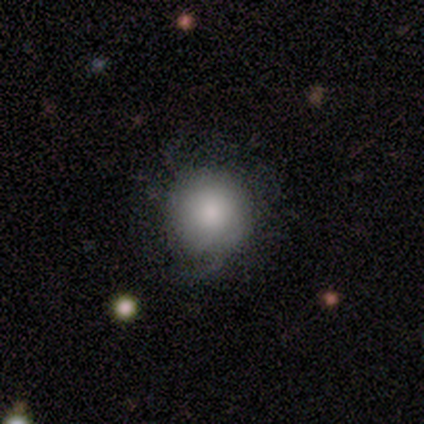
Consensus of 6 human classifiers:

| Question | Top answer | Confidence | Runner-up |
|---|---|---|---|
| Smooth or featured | smooth | 50% | tied: featured or disk (50%) |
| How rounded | round | 100% | — |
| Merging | none | 67% | minor disturbance (33%) |